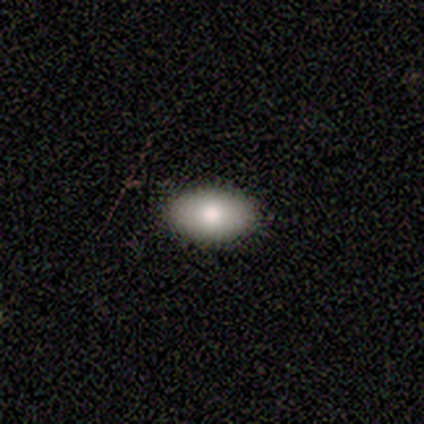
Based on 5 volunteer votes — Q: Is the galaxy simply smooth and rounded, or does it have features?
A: smooth — 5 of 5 (100%).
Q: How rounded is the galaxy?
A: in between — 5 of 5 (100%).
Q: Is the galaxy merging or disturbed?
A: none — 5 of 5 (100%).